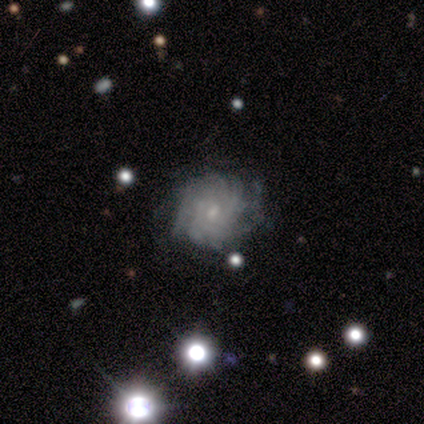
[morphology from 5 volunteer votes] Smooth or featured? featured or disk (100%)
Edge-on disk? no (100%)
Bar? no (60%)
Spiral arms? yes (100%)
Spiral winding? tight (80%)
Spiral arm count? more than 4 (60%)
Bulge size? small (100%)
Merging? none (60%)